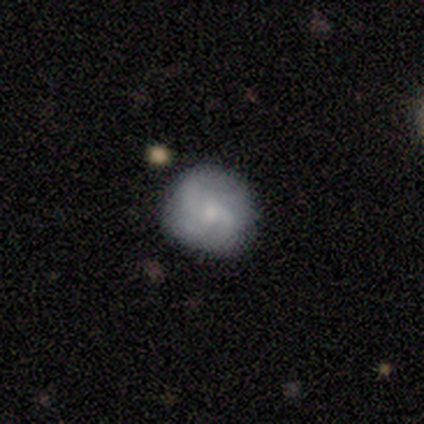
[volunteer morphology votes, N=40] This is likely a featured or disk galaxy (60%). It is clearly not viewed edge-on (96%). Bar: possibly no (57%). Spiral arm pattern: clearly yes (96%). Spiral arm count: marginally 3 (32%, tied with can't tell). Spiral winding: possibly medium (50%). Central bulge: marginally small (43%). Merging: likely none (70%).